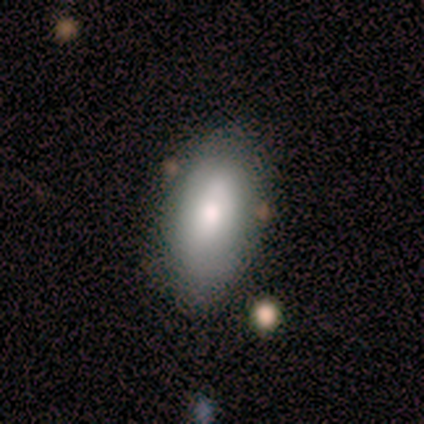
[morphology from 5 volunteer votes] Q: Smooth or featured?
A: smooth (60%); runner-up: featured or disk (20%)
Q: How rounded?
A: in between (100%)
Q: Merging?
A: none (50%); tied with: minor disturbance (50%)